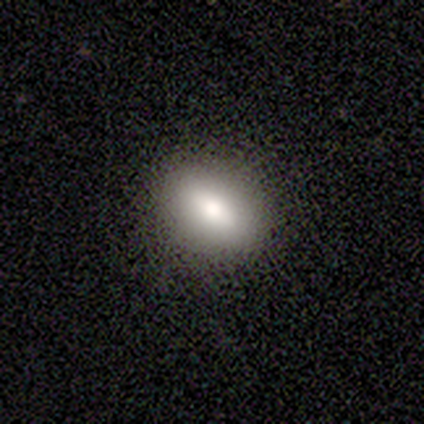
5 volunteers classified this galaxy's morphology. Overall: smooth (80%). How rounded: in between (75%). Merging: none (100%).